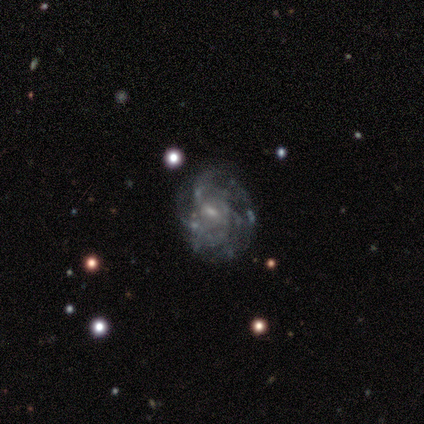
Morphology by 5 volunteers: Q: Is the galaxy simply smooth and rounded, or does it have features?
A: featured or disk — 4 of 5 (80%).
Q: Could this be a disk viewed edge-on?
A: no — 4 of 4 (100%).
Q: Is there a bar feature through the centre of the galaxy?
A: weak — 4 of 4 (100%).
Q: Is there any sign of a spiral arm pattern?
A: yes — 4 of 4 (100%).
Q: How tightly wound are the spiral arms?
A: tight — 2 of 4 (50%).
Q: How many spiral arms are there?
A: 2 — 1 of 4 (25%, tied with 4, more than 4 and can't tell).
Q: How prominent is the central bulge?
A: small — 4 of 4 (100%).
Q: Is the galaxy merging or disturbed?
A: none — 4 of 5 (80%).